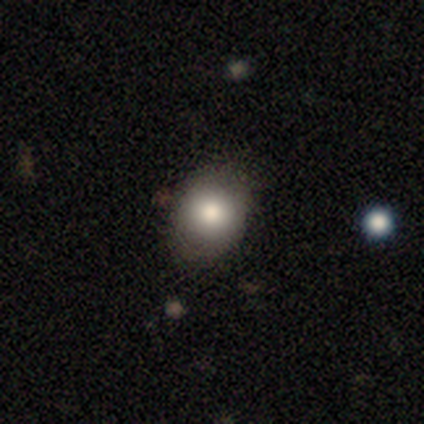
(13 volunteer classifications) Smooth or featured? smooth (77%)
How rounded? round (50%, tied with in between)
Merging? none (90%)